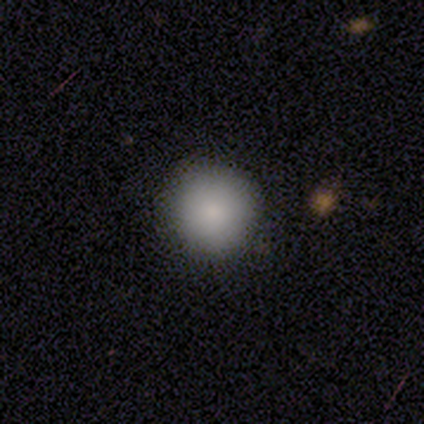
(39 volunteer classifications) Smooth or featured: smooth — 82% (star or artifact — 13%)
How rounded: round — 100%
Merging: none — 97% (minor disturbance — 3%)